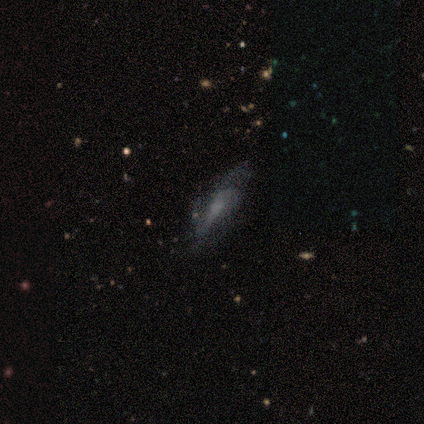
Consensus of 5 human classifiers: Smooth or featured: featured or disk — 100%
Edge-on disk: no — 60% (yes — 40%)
Bar: no — 100%
Spiral arms: yes — 67% (no — 33%)
Spiral winding: tight — 50% (tied with medium — 50%)
Spiral arm count: 3 — 100%
Bulge size: none — 67% (small — 33%)
Merging: minor disturbance — 60% (none — 40%)